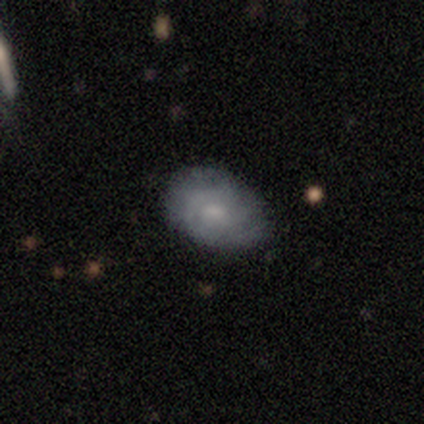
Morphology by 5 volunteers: Overall: smooth (60%; featured or disk 40%). How rounded: in between (67%; round 33%). Merging: none (60%; minor disturbance 40%).